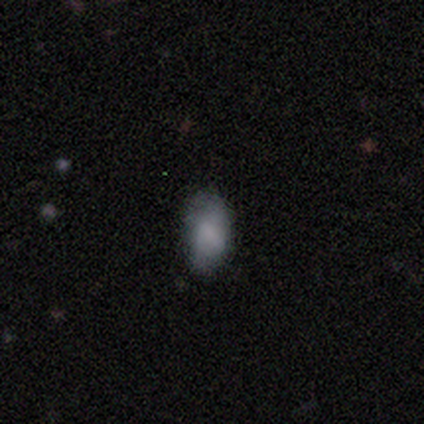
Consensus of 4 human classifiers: A smooth galaxy with no disk features (75%) that is in between round and cigar-shaped (67%). Merging: none (50%, tied with minor disturbance).